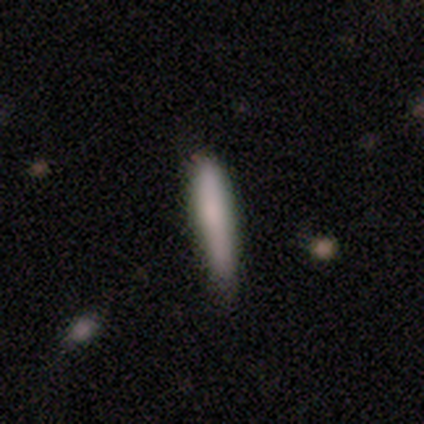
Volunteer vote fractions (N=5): smooth_or_featured: smooth (p=0.80) [alt: featured or disk p=0.20]
how_rounded: cigar-shaped (p=1.00)
merging: none (p=1.00)